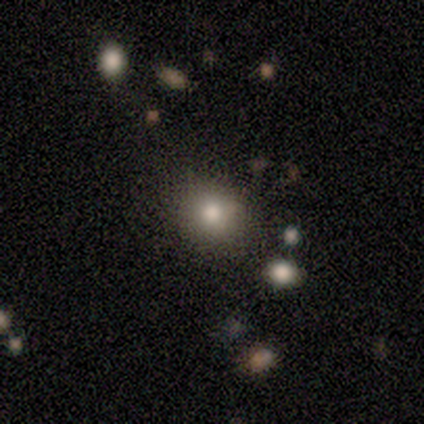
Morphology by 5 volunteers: A smooth galaxy with no disk features (80%) that is round (100%). Merging: none (100%).